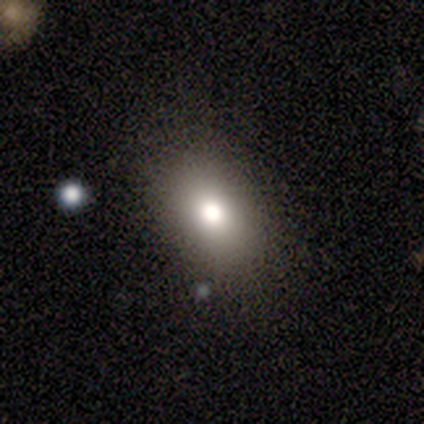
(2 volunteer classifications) smooth 50% (tied), featured or disk 50% (tied), star or artifact 0%. Down the decision tree: how rounded — in between (100%); merging — none (50%, tied with minor disturbance).